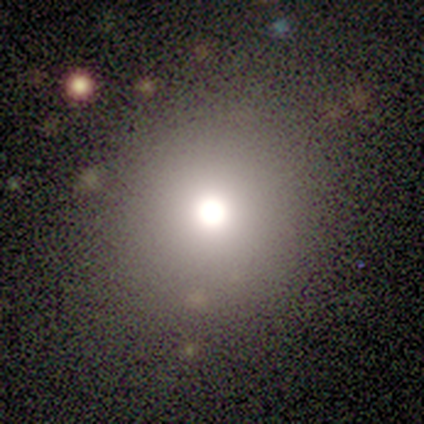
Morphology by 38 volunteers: Smooth or featured?
  - smooth: 66% *
  - star or artifact: 24%
  - featured or disk: 11%
How rounded?
  - round: 100% *
  - in between: 0%
  - cigar-shaped: 0%
Merging?
  - none: 90% *
  - minor disturbance: 7%
  - major disturbance: 3%
  - merger: 0%